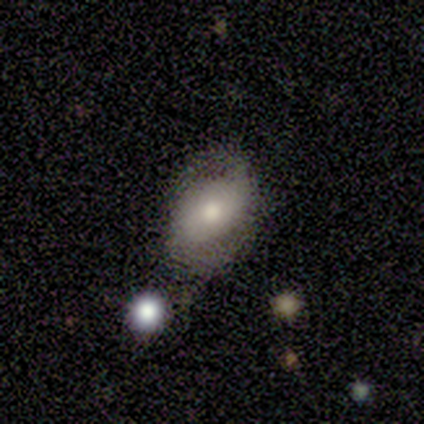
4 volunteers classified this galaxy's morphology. Smooth or featured? featured or disk (75%)
Edge-on disk? no (100%)
Bar? no (100%)
Spiral arms? yes (100%)
Spiral winding? tight (67%)
Spiral arm count? can't tell (67%)
Bulge size? moderate (67%)
Merging? none (100%)